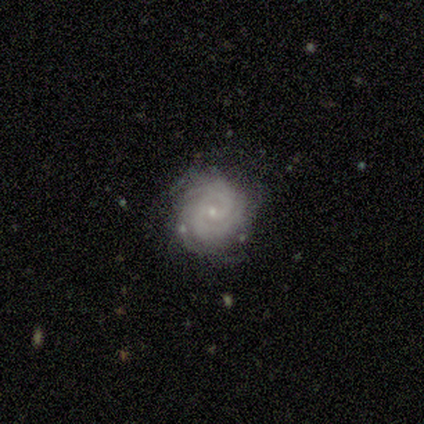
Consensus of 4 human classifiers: Overall: featured or disk (75%). Edge-on disk: no (100%). Bar: weak (67%; no 33%). Spiral arms: yes (100%). Spiral arm count: 1 (33%, tied with 2 and can't tell). Spiral winding: tight (67%; medium 33%). Bulge size: small (100%). Merging: none (75%).